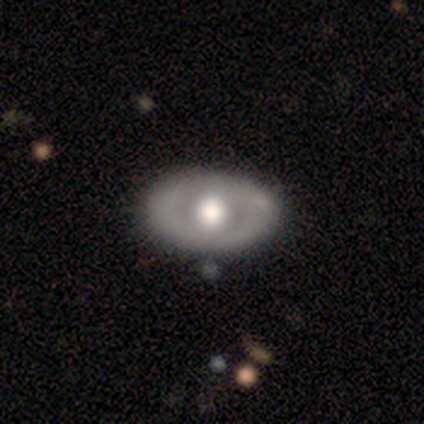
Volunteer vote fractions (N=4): Overall: featured or disk (100%). Edge-on disk: no (100%). Bar: no (100%). Spiral arms: no (100%). Bulge size: large (50%, tied with moderate). Merging: none (75%).